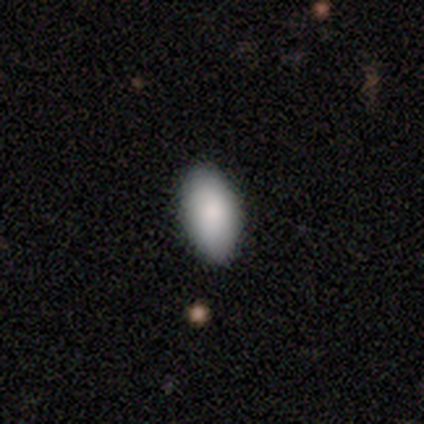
Smooth or featured: smooth — 86% (featured or disk — 14%)
How rounded: in between — 100%
Merging: none — 86% (minor disturbance — 14%)